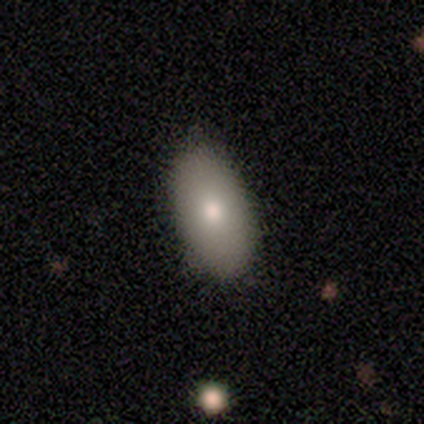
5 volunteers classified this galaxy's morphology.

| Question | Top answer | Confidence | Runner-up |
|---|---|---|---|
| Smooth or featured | smooth | 80% | star or artifact (20%) |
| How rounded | in between | 100% | — |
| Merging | none | 100% | — |